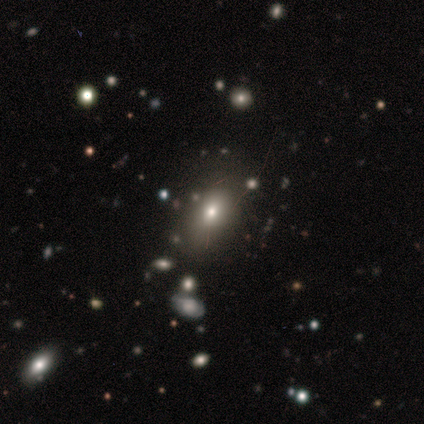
smooth 76%, star or artifact 19%, featured or disk 5%. Down the decision tree: how rounded — in between (62%); merging — none (76%).